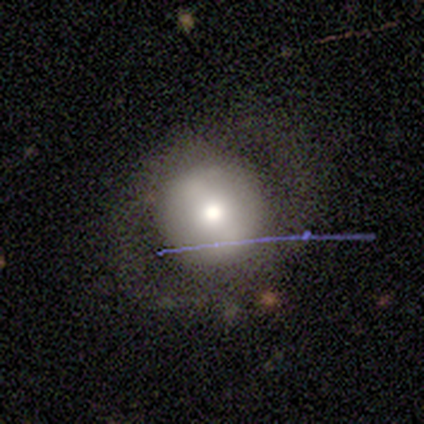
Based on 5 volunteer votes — A featured or disk galaxy (80%) with no bar (100%), no spiral arms (75%) and a moderate central bulge (100%). Merging: none (100%).